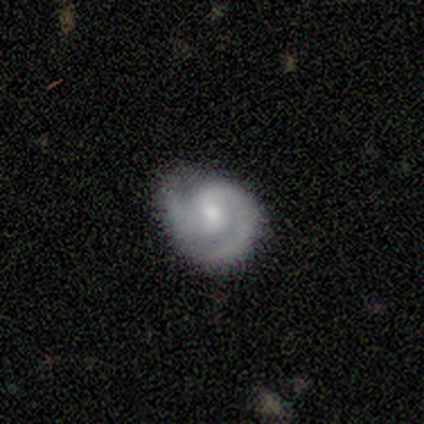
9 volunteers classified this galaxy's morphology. Smooth or featured? featured or disk (89%)
Edge-on disk? no (100%)
Bar? weak (62%)
Spiral arms? yes (100%)
Spiral winding? tight (50%)
Spiral arm count? 2 (88%)
Bulge size? moderate (50%)
Merging? none (78%)